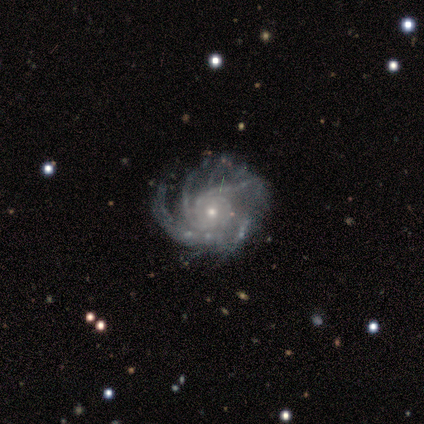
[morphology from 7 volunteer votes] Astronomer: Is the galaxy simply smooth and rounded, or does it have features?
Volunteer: featured or disk — 100%.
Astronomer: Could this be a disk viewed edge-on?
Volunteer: no — 86%.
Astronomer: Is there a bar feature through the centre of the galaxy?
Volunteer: no — 100%.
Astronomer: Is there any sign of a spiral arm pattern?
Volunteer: yes — 100%.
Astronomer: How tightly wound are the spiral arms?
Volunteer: medium — 50% (runner-up: tight, 33%).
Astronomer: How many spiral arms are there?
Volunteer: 3 — 33%, tied with more than 4 at 33%.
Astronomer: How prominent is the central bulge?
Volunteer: moderate — 67%.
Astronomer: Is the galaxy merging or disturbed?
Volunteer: none — 43% (runner-up: minor disturbance, 29%).